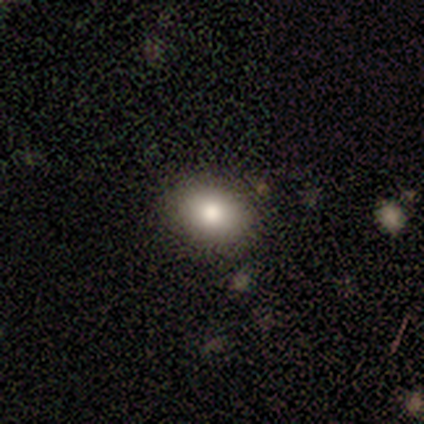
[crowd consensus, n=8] This is clearly a smooth galaxy (100%). How rounded: likely in between (75%). Merging: clearly none (100%).